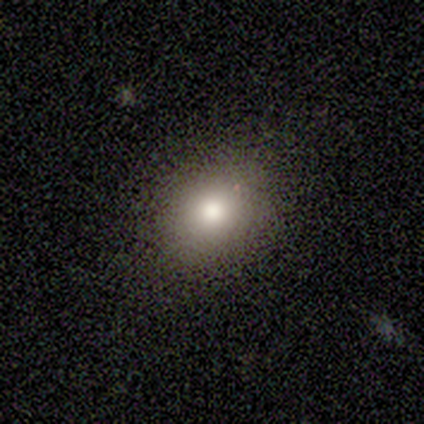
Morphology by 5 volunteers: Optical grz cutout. It shows a featured or disk galaxy (60%) with a weak bar (50%, tied with no), no spiral arms (100%) and a moderate central bulge (100%). Merging: none (50%, tied with minor disturbance).